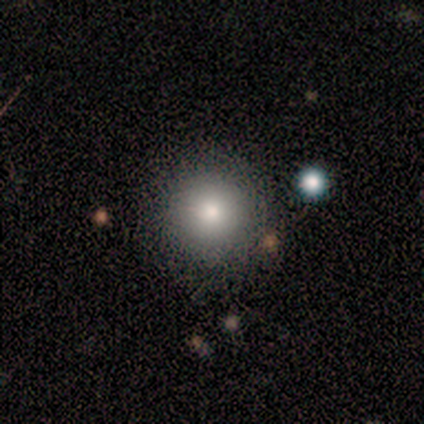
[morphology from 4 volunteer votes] A smooth galaxy with no disk features (100%) that is round (100%). Merging: none (100%).